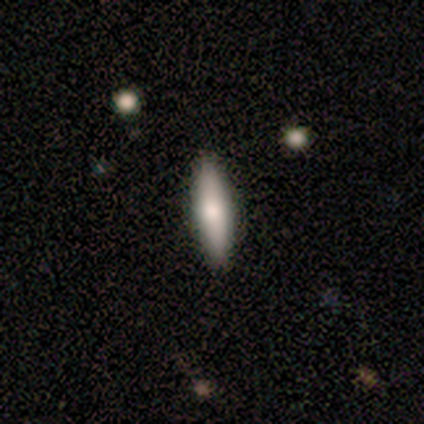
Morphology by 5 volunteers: smooth 80%, featured or disk 20%, star or artifact 0%. Down the decision tree: how rounded — cigar-shaped (75%); merging — none (80%).